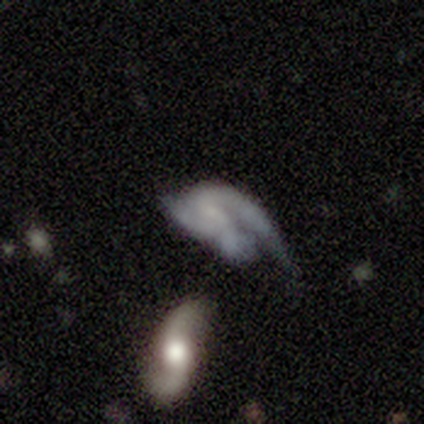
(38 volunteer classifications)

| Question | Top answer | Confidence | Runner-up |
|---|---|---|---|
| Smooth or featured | featured or disk | 79% | smooth (16%) |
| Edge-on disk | no | 100% | — |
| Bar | no | 50% | weak (40%) |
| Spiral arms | yes | 80% | no (20%) |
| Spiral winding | medium | 46% | loose (38%) |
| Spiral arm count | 2 | 62% | 1 (25%) |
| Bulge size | small | 57% | none (33%) |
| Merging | major disturbance | 47% | minor disturbance (22%) |